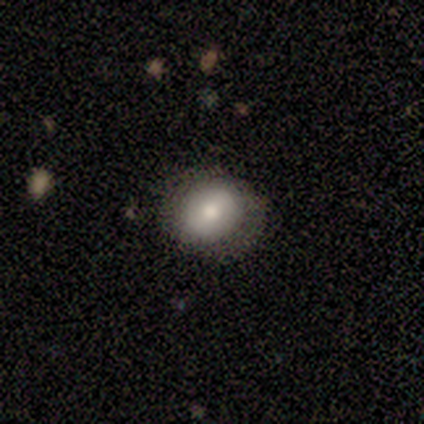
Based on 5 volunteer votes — Q: Smooth or featured?
A: smooth (80%); runner-up: featured or disk (20%)
Q: How rounded?
A: round (50%); tied with: in between (50%)
Q: Merging?
A: none (80%); runner-up: minor disturbance (20%)